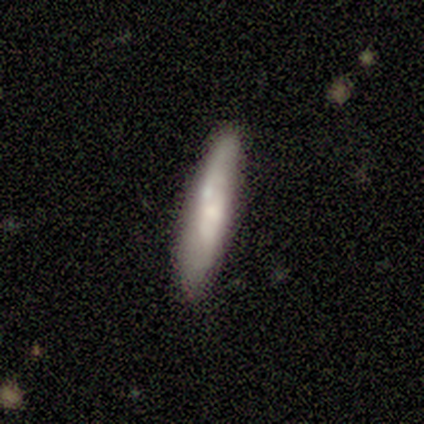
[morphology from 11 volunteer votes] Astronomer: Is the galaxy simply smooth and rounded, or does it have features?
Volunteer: smooth — 64%.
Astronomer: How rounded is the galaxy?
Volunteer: cigar-shaped — 86%.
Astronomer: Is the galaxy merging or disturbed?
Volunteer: none — 64%.